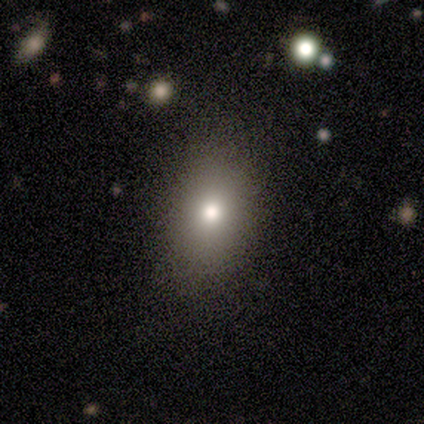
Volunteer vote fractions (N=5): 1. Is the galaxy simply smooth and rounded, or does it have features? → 40% smooth (tied), 40% star or artifact (tied), 20% featured or disk.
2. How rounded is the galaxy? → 100% round, 0% in between, 0% cigar-shaped.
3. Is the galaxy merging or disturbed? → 67% none, 33% minor disturbance, 0% major disturbance, 0% merger.